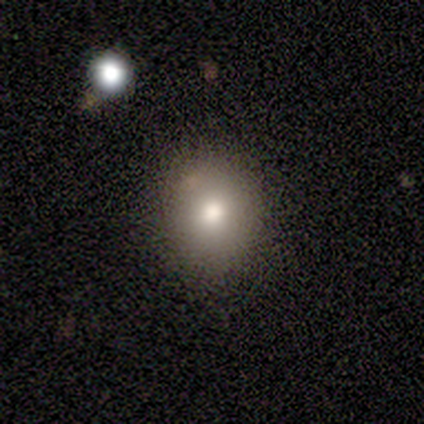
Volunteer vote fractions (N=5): smooth 80%, star or artifact 20%, featured or disk 0%. Down the decision tree: how rounded — round (75%); merging — none (100%).